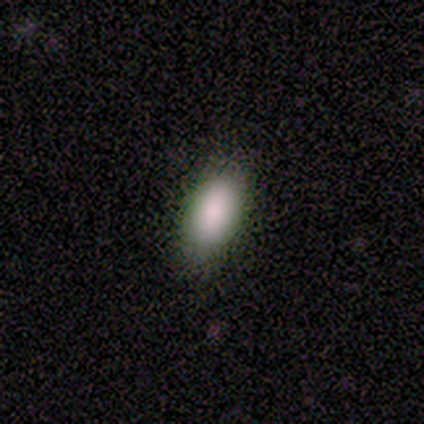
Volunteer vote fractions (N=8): Volunteers were most divided on "how rounded": in between: 88%, cigar-shaped: 12%, round: 0%. More confident: smooth or featured — smooth (100%); merging — none (100%).